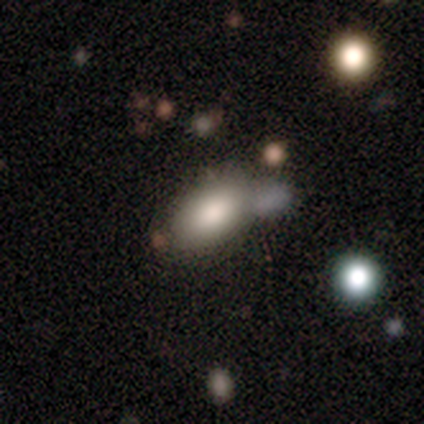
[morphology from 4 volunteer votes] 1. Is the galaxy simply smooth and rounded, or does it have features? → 75% smooth, 25% featured or disk, 0% star or artifact.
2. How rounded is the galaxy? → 100% in between, 0% round, 0% cigar-shaped.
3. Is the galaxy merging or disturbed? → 50% none (tied), 50% merger (tied), 0% minor disturbance, 0% major disturbance.